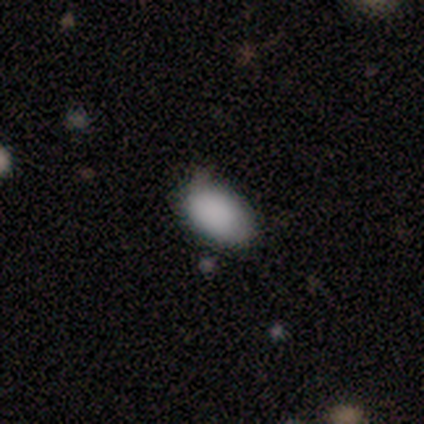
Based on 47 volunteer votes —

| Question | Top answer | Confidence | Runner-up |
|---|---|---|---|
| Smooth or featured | smooth | 89% | star or artifact (6%) |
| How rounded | in between | 100% | — |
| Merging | none | 80% | minor disturbance (20%) |